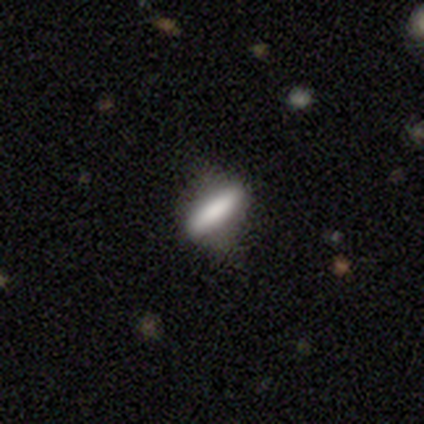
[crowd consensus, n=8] smooth_or_featured: smooth (p=0.75) [alt: featured or disk p=0.25]
how_rounded: cigar-shaped (p=0.67) [alt: in between p=0.33]
merging: none (p=0.75) [alt: minor disturbance p=0.12]